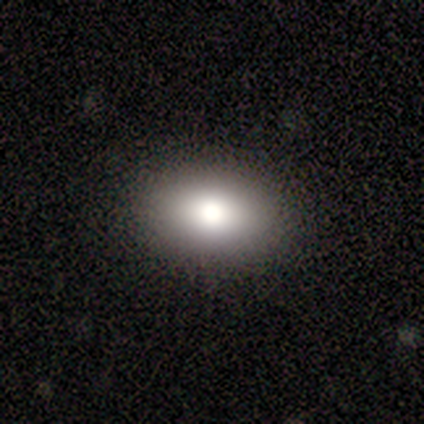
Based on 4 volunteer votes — This appears to be a smooth galaxy with no disk features (100%) that is in between round and cigar-shaped (100%). Merging: none (100%).